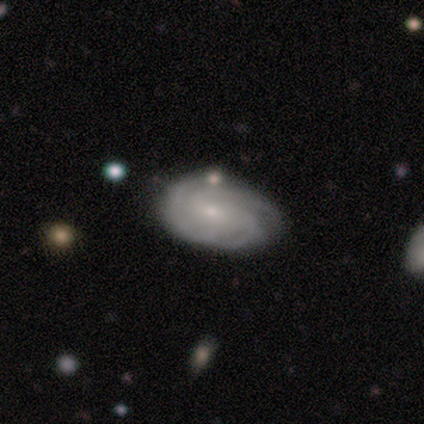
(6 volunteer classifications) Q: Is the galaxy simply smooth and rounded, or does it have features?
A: featured or disk — 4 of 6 (67%).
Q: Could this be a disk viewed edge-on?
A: no — 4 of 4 (100%).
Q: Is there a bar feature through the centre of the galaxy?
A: no — 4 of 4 (100%).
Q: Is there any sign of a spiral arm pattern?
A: yes — 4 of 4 (100%).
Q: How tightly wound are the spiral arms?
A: tight — 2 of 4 (50%, tied with medium).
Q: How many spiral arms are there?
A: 3 — 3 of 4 (75%).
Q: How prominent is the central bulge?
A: small — 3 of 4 (75%).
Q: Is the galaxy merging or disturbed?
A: none — 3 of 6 (50%).